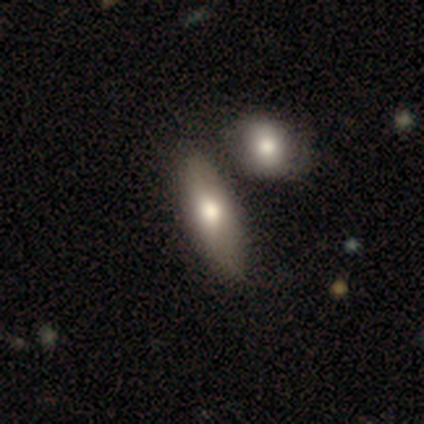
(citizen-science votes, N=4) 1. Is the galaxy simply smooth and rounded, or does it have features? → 100% smooth, 0% featured or disk, 0% star or artifact.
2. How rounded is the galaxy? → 100% in between, 0% round, 0% cigar-shaped.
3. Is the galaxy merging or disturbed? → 100% none, 0% minor disturbance, 0% major disturbance, 0% merger.